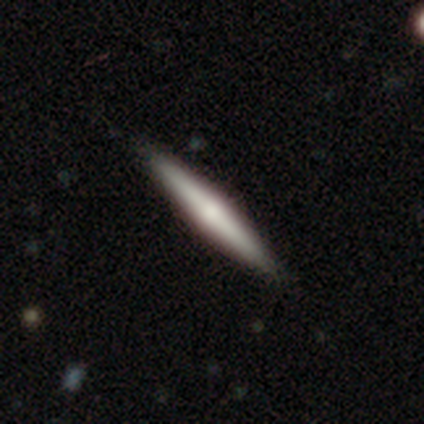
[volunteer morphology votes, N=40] Smooth or featured? 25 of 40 (62%) said featured or disk. Edge-on disk? 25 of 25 (100%) said yes. Edge-on bulge? 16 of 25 (64%) said rounded. Merging? 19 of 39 (49%) said none.